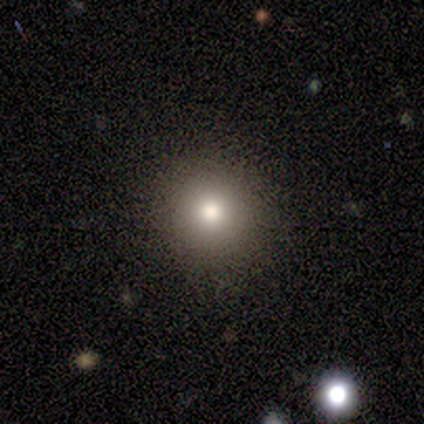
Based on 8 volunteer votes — smooth 62%, star or artifact 25%, featured or disk 12%. Down the decision tree: how rounded — round (100%); merging — none (100%).